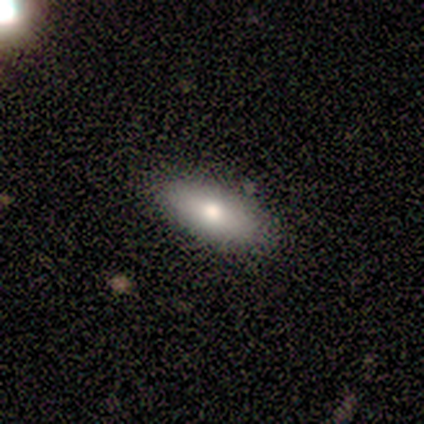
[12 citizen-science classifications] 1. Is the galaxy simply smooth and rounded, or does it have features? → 58% smooth, 25% featured or disk, 17% star or artifact.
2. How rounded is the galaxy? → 86% in between, 14% cigar-shaped, 0% round.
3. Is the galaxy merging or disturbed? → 100% none, 0% minor disturbance, 0% major disturbance, 0% merger.